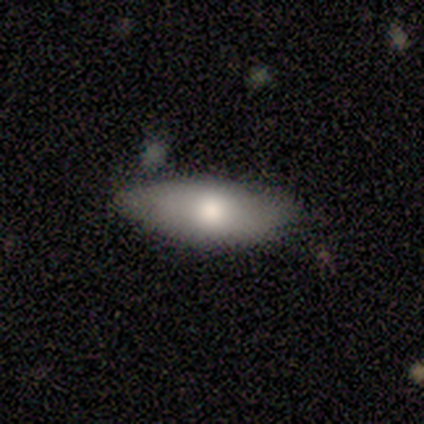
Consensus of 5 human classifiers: Q: Smooth or featured?
A: smooth (80%); runner-up: featured or disk (20%)
Q: How rounded?
A: in between (75%); runner-up: round (25%)
Q: Merging?
A: none (60%); runner-up: minor disturbance (40%)